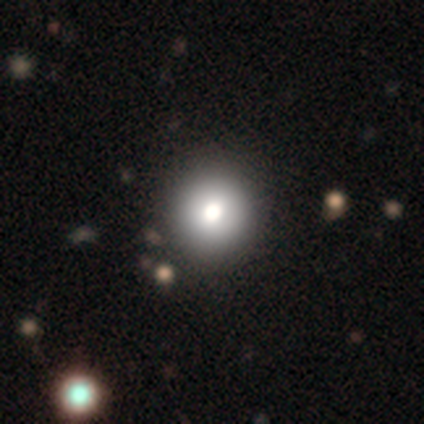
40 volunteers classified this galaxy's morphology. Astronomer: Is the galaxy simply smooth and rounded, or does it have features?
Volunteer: smooth — 88%.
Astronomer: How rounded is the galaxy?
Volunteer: round — 89%.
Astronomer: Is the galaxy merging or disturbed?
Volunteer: none — 68%.